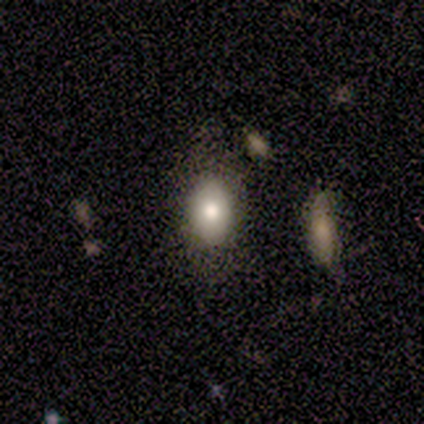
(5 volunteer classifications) This appears to be a smooth galaxy with no disk features (60%) that is in between round and cigar-shaped (100%). Merging: minor disturbance (60%).